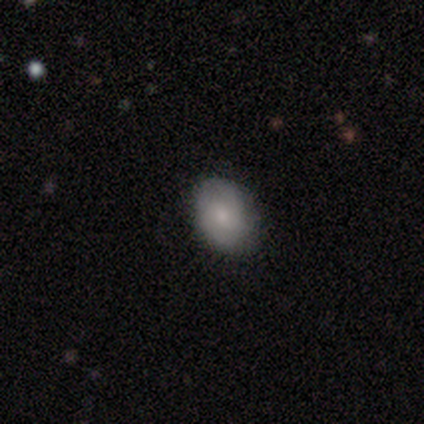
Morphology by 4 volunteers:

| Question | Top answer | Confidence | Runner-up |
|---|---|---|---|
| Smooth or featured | smooth | 75% | featured or disk (25%) |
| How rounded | in between | 67% | round (33%) |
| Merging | none | 75% | minor disturbance (25%) |